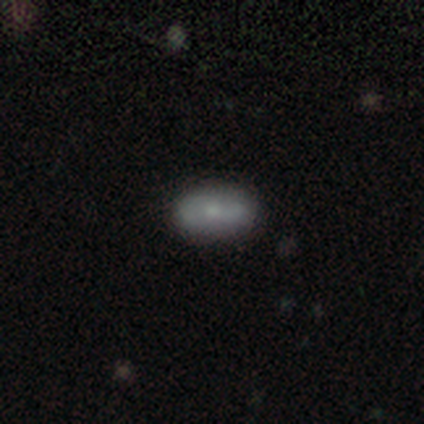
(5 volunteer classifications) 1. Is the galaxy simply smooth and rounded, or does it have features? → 60% smooth, 40% featured or disk, 0% star or artifact.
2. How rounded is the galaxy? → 67% in between, 33% cigar-shaped, 0% round.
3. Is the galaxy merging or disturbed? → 100% none, 0% minor disturbance, 0% major disturbance, 0% merger.